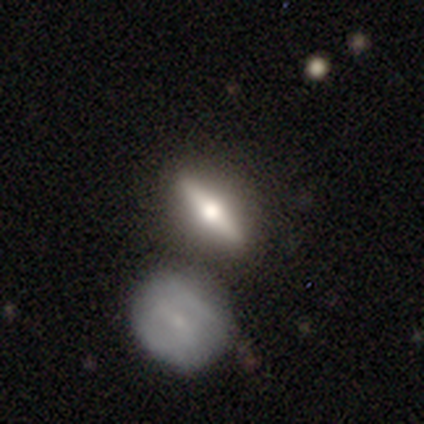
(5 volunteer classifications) smooth_or_featured: featured or disk (p=0.80) [alt: smooth p=0.20]
disk_edge_on: yes (p=1.00)
edge_on_bulge: rounded (p=1.00)
merging: none (p=0.80) [alt: merger p=0.20]